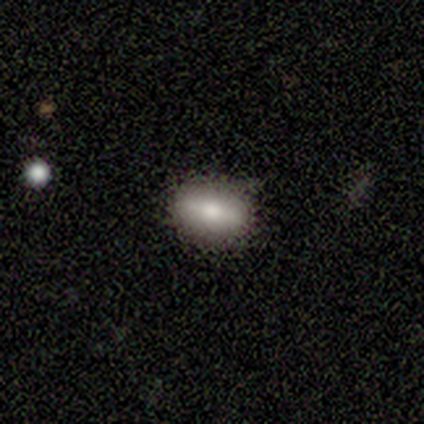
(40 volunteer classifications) Q: Smooth or featured?
A: smooth (60%); runner-up: featured or disk (35%)
Q: How rounded?
A: in between (83%); runner-up: round (8%)
Q: Merging?
A: none (76%); runner-up: minor disturbance (21%)